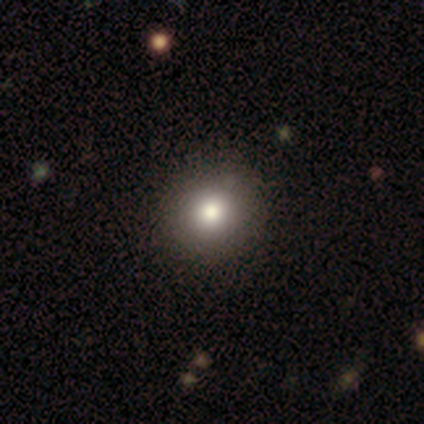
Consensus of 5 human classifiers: smooth-or-featured: smooth: 40% (tied) | featured or disk: 40% (tied) | star or artifact: 20%
  how-rounded: round: 50% (tied) | in between: 50% (tied) | cigar-shaped: 0%
  merging: none: 100% | minor disturbance: 0% | major disturbance: 0% | merger: 0%